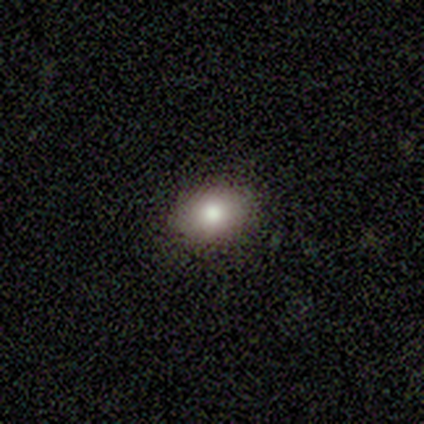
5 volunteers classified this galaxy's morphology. A smooth galaxy with no disk features (100%) that is in between round and cigar-shaped (80%).

Vote fractions:
- Smooth or featured? smooth: 100% / featured or disk: 0% / star or artifact: 0%
- How rounded? in between: 80% / round: 20% / cigar-shaped: 0%
- Merging? none: 100% / minor disturbance: 0% / major disturbance: 0% / merger: 0%